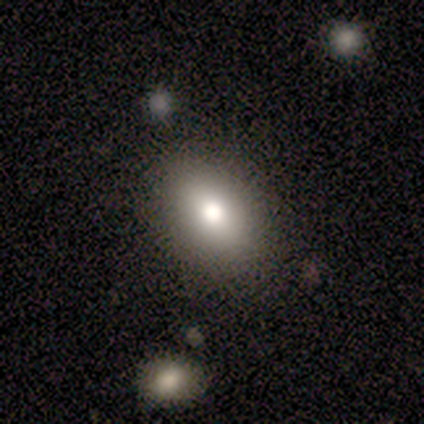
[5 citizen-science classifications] Overall: smooth (100%). How rounded: in between (100%). Merging: none (80%).